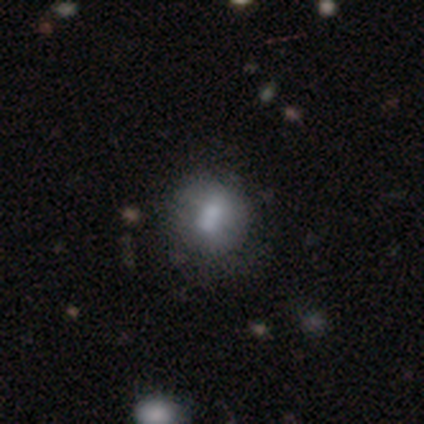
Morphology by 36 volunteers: This appears to be a smooth galaxy with no disk features (47%) that is round (82%). Merging: none (73%).